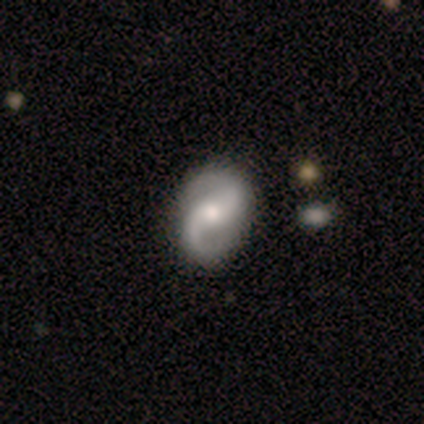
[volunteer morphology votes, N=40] Smooth or featured? 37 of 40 (92%) said featured or disk. Edge-on disk? 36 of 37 (97%) said no. Bar? 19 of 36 (53%) said weak. Spiral arms? 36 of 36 (100%) said yes. Spiral winding? 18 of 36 (50%) said medium. Spiral arm count? 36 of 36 (100%) said 2. Bulge size? 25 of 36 (69%) said moderate. Merging? 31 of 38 (82%) said none.